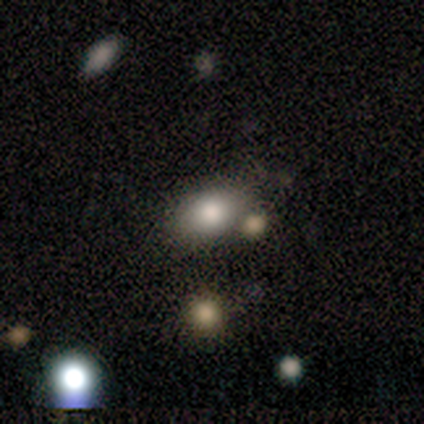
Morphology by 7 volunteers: smooth 86%, featured or disk 14%, star or artifact 0%. Down the decision tree: how rounded — in between (83%); merging — none (71%).